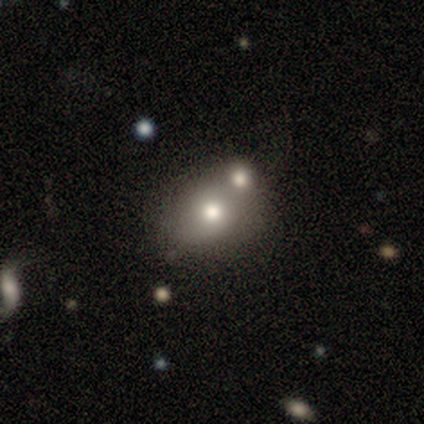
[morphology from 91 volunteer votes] Smooth or featured?
  - smooth: 64% *
  - star or artifact: 19%
  - featured or disk: 18%
How rounded?
  - round: 50% * (tied)
  - in between: 50% * (tied)
  - cigar-shaped: 0%
Merging?
  - none: 50% *
  - merger: 36%
  - minor disturbance: 9%
  - major disturbance: 4%